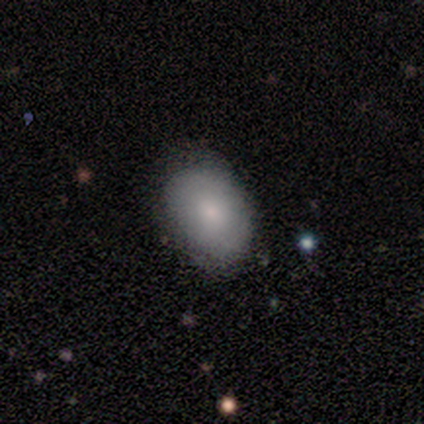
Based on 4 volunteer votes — smooth-or-featured: smooth: 50% | featured or disk: 25% | star or artifact: 25%
  how-rounded: round: 50% (tied) | in between: 50% (tied) | cigar-shaped: 0%
  merging: none: 67% | minor disturbance: 33% | major disturbance: 0% | merger: 0%